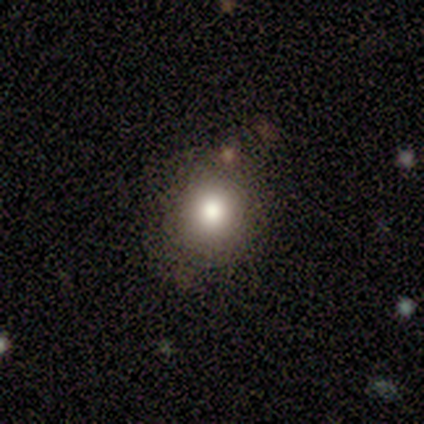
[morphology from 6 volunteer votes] Smooth or featured: smooth — 83% (featured or disk — 17%)
How rounded: round — 60% (in between — 40%)
Merging: none — 83% (minor disturbance — 17%)